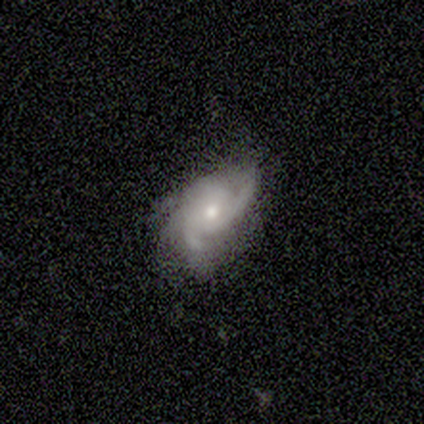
Q: Smooth or featured?
A: featured or disk (78%); runner-up: smooth (14%)
Q: Edge-on disk?
A: no (97%); runner-up: yes (3%)
Q: Bar?
A: no (96%); runner-up: weak (4%)
Q: Spiral arms?
A: yes (96%); runner-up: no (4%)
Q: Spiral winding?
A: medium (52%); runner-up: tight (44%)
Q: Spiral arm count?
A: 3 (44%); runner-up: 2 (33%)
Q: Bulge size?
A: moderate (71%); runner-up: small (21%)
Q: Merging?
A: none (56%); runner-up: minor disturbance (29%)